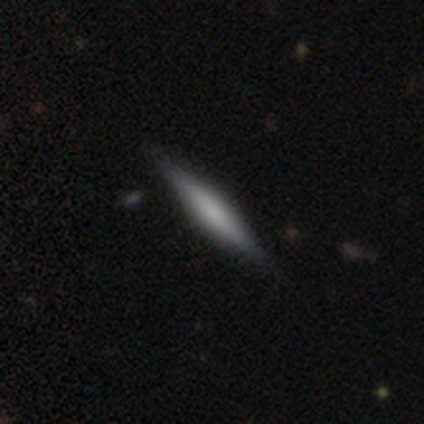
This appears to be a featured or disk galaxy (75%) viewed edge-on (100%) with a rounded central bulge (67%). Merging: none (100%).